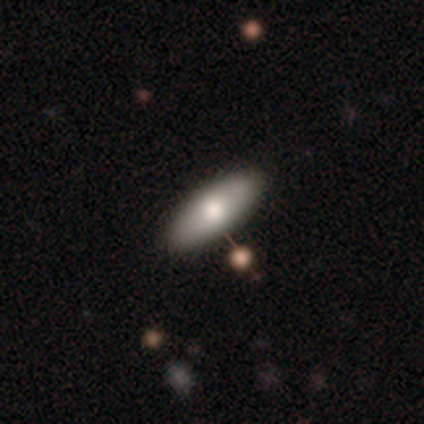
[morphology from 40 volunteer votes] Overall: smooth (65%; featured or disk 28%). How rounded: in between (69%; cigar-shaped 31%). Merging: none (86%).